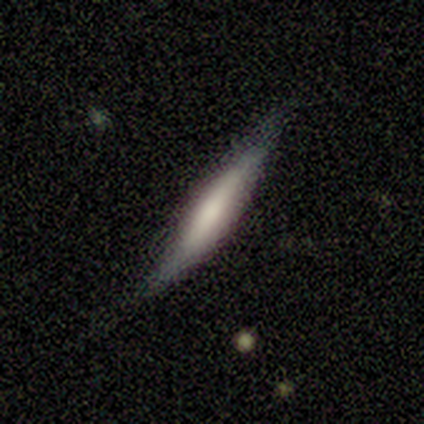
Smooth or featured: smooth — 80% (featured or disk — 20%)
How rounded: cigar-shaped — 75% (in between — 25%)
Merging: none — 60% (minor disturbance — 20%)